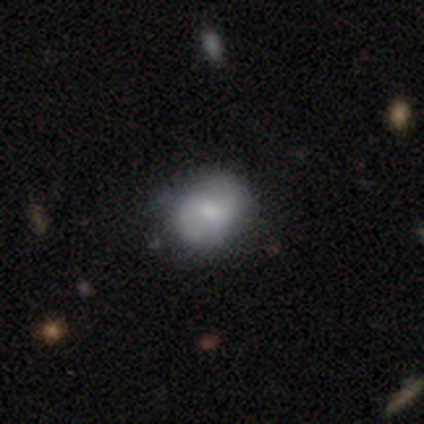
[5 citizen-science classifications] smooth-or-featured: smooth: 60% | featured or disk: 40% | star or artifact: 0%
  how-rounded: round: 100% | in between: 0% | cigar-shaped: 0%
  merging: none: 60% | minor disturbance: 20% | major disturbance: 20% | merger: 0%